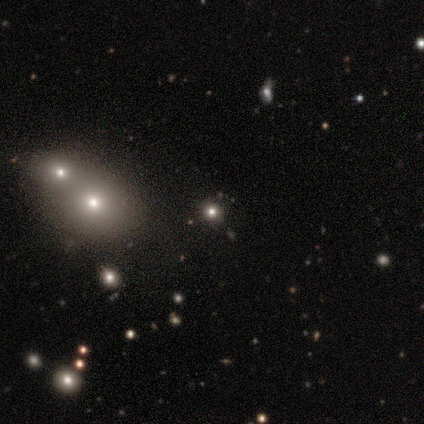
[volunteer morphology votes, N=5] Q: Smooth or featured?
A: smooth (40%); tied with: featured or disk (40%)
Q: How rounded?
A: round (100%)
Q: Merging?
A: none (50%); tied with: merger (50%)